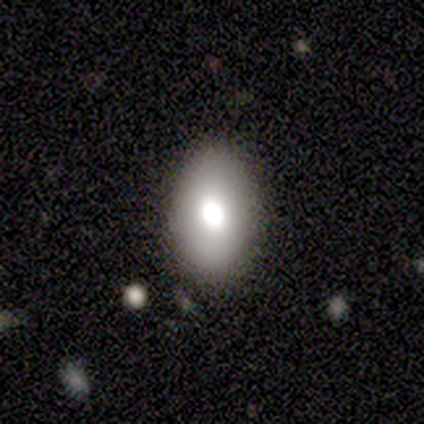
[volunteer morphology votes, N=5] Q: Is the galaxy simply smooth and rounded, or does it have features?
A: smooth — 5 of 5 (100%).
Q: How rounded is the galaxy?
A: in between — 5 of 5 (100%).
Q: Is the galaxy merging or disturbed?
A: none — 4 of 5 (80%).